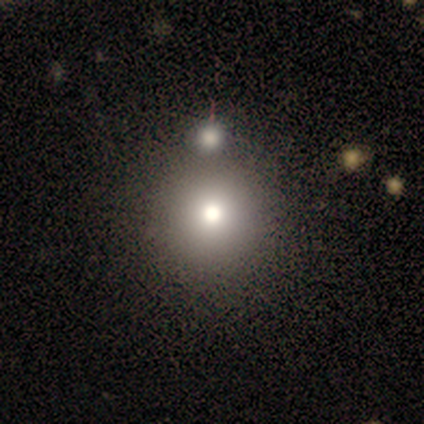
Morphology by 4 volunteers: This appears to be a smooth galaxy with no disk features (50%, tied with star or artifact) that is round (100%). Merging: none (100%).